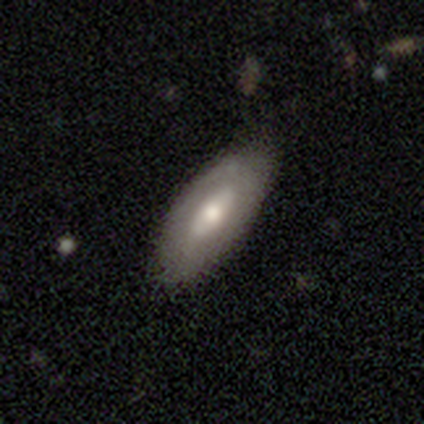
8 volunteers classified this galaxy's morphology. A smooth galaxy with no disk features (62%) that is in between round and cigar-shaped (100%). Merging: none (86%).